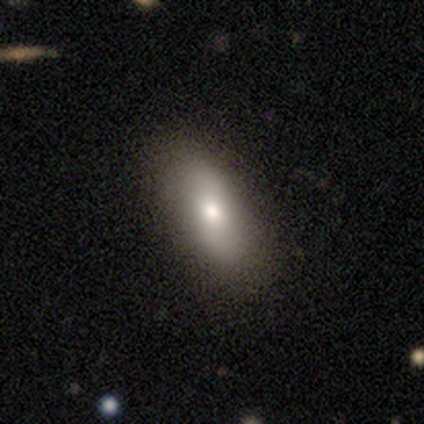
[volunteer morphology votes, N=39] A smooth galaxy with no disk features (72%) that is in between round and cigar-shaped (93%). Merging: none (61%).